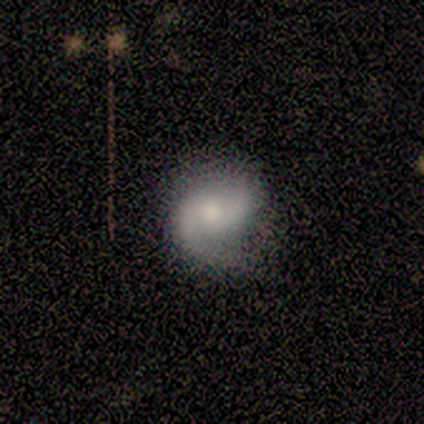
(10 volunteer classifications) Smooth or featured? featured or disk (70%)
Edge-on disk? no (100%)
Bar? no (71%)
Spiral arms? yes (86%)
Spiral winding? medium (50%)
Spiral arm count? 2 (83%)
Bulge size? moderate (43%, tied with small)
Merging? none (80%)